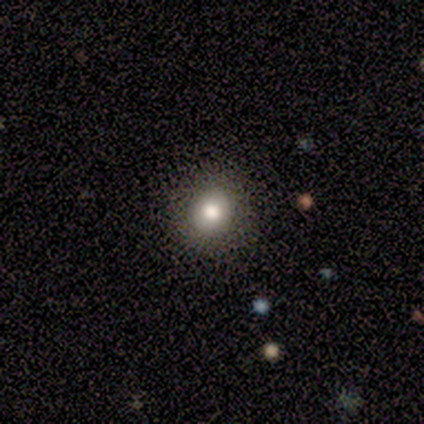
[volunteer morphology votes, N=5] smooth_or_featured: smooth (p=0.60) [alt: featured or disk p=0.20]
how_rounded: round (p=0.67) [alt: in between p=0.33]
merging: none (p=1.00)